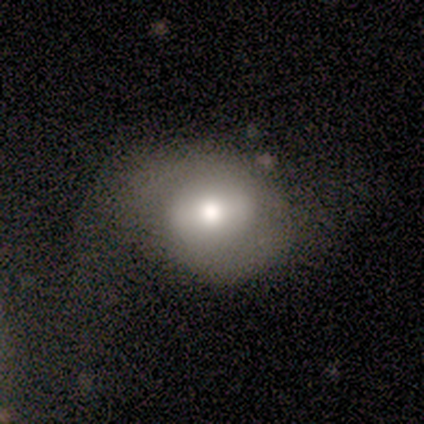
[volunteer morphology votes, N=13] smooth_or_featured: smooth (p=0.54) [alt: featured or disk p=0.46]
how_rounded: round (p=0.57) [alt: in between p=0.43]
merging: none (p=0.46) [alt: major disturbance p=0.31]